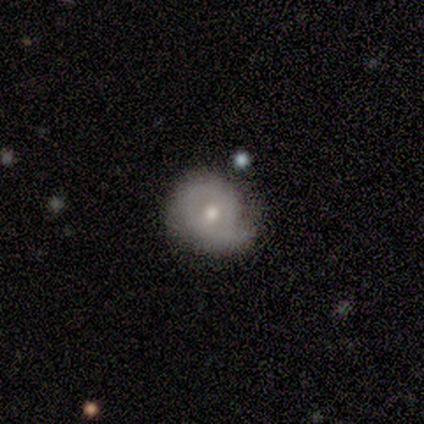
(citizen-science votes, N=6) This appears to be a smooth galaxy with no disk features (67%) that is round (100%). Merging: none (67%).